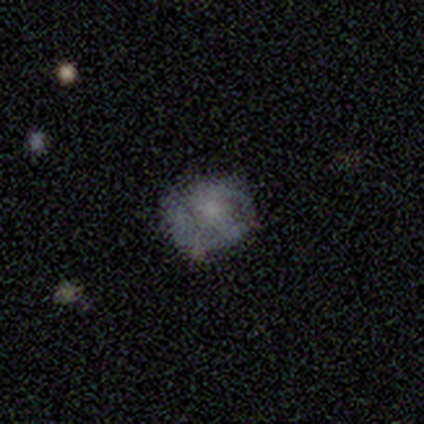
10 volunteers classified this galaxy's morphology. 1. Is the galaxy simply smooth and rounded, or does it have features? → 60% featured or disk, 40% smooth, 0% star or artifact.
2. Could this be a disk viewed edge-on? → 100% no, 0% yes.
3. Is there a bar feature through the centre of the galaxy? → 100% no, 0% strong, 0% weak.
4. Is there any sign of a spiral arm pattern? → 50% yes (tied), 50% no (tied).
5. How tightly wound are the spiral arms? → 67% medium, 33% loose, 0% tight.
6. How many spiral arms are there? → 67% 2, 33% can't tell, 0% 1, 0% 3, 0% 4, 0% more than 4.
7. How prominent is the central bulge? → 50% none, 33% small, 17% moderate, 0% dominant, 0% large.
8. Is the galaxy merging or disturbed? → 80% none, 20% minor disturbance, 0% major disturbance, 0% merger.